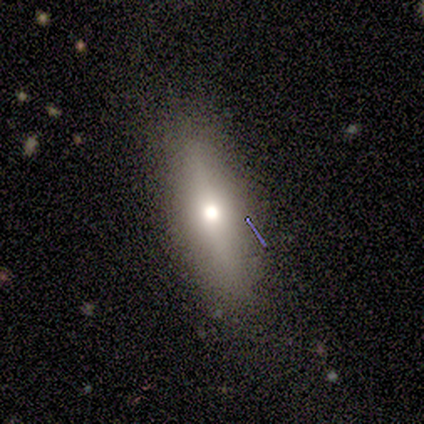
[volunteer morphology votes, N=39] This appears to be a smooth galaxy with no disk features (56%) that is cigar-shaped (59%). Merging: none (81%).